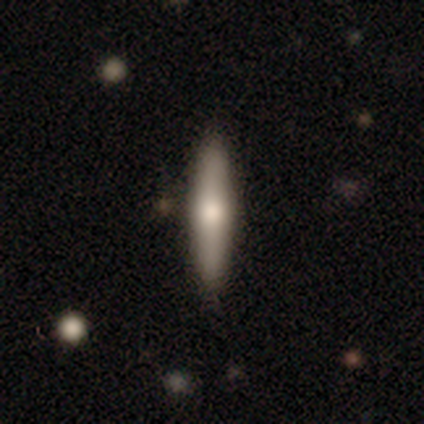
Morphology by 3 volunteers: smooth-or-featured: smooth: 100% | featured or disk: 0% | star or artifact: 0%
  how-rounded: cigar-shaped: 100% | round: 0% | in between: 0%
  merging: none: 67% | minor disturbance: 33% | major disturbance: 0% | merger: 0%